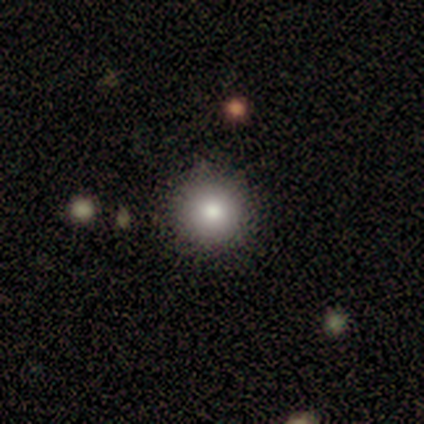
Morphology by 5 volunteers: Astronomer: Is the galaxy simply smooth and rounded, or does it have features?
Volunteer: smooth — 100%.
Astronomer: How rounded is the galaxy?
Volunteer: round — 100%.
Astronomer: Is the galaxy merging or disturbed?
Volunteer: none — 100%.